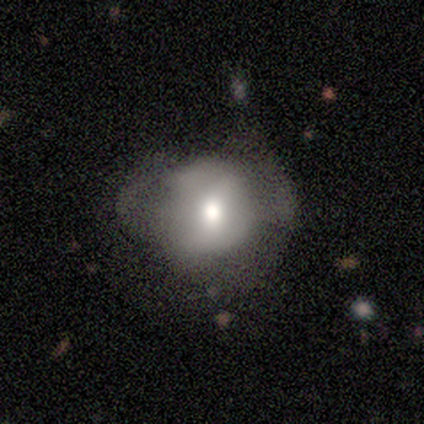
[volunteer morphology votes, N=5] This appears to be a featured or disk galaxy (60%) with a strong bar (33%, tied with weak and no), no spiral arms (67%) and a moderate central bulge (67%). Merging: minor disturbance (40%, tied with major disturbance).